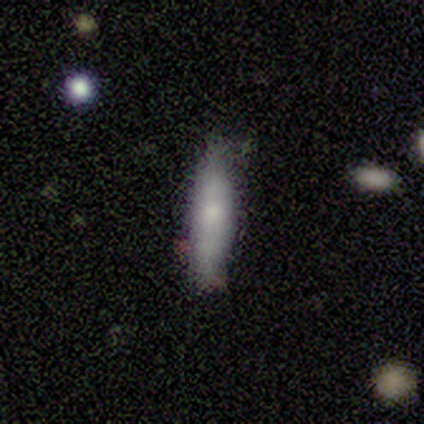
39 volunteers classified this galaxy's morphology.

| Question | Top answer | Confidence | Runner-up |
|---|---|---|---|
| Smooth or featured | smooth | 69% | featured or disk (26%) |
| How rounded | cigar-shaped | 93% | in between (7%) |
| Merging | none | 70% | minor disturbance (22%) |